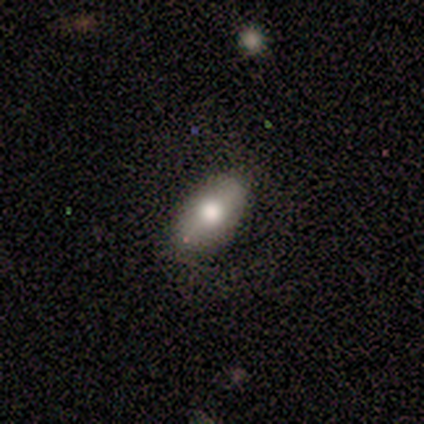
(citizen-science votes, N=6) Smooth or featured: smooth — 67% (featured or disk — 17%)
How rounded: in between — 100%
Merging: none — 100%